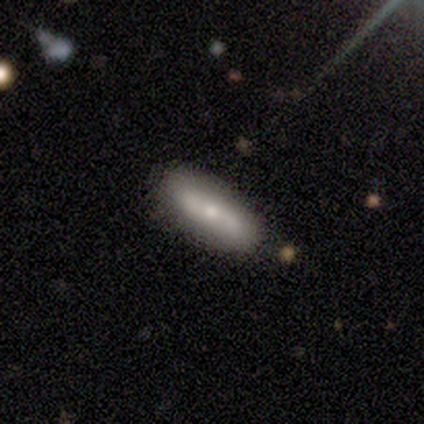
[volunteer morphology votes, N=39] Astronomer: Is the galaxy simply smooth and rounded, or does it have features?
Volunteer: smooth — 46%, tied with featured or disk at 46%.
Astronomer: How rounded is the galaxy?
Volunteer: in between — 56% (runner-up: cigar-shaped, 39%).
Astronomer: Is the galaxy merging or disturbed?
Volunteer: none — 86%.